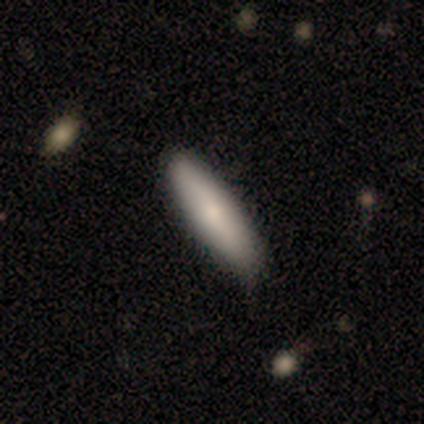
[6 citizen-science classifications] Smooth or featured?
  - smooth: 67% *
  - featured or disk: 33%
  - star or artifact: 0%
How rounded?
  - in between: 50% * (tied)
  - cigar-shaped: 50% * (tied)
  - round: 0%
Merging?
  - none: 83% *
  - minor disturbance: 17%
  - major disturbance: 0%
  - merger: 0%